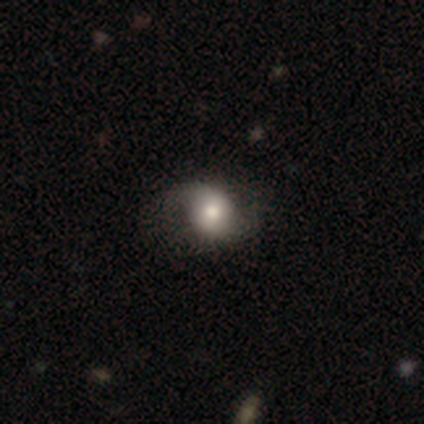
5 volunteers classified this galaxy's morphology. A featured or disk galaxy (60%) with no bar (67%), 2 (100%) loose (100%) spiral arms (67%) and a moderate central bulge (67%).

Vote fractions:
- Smooth or featured? featured or disk: 60% / smooth: 40% / star or artifact: 0%
- Edge-on disk? no: 100% / yes: 0%
- Bar? no: 67% / weak: 33% / strong: 0%
- Spiral arms? yes: 67% / no: 33%
- Spiral winding? loose: 100% / tight: 0% / medium: 0%
- Spiral arm count? 2: 100% / 1: 0% / 3: 0% / 4: 0% / more than 4: 0% / can't tell: 0%
- Bulge size? moderate: 67% / large: 33% / dominant: 0% / small: 0% / none: 0%
- Merging? none: 60% / minor disturbance: 20% / major disturbance: 20% / merger: 0%